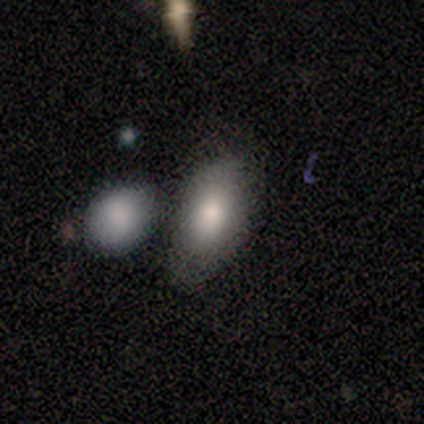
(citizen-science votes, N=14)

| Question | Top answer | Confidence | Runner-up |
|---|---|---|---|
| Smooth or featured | smooth | 86% | featured or disk (14%) |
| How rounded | in between | 92% | round (8%) |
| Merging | none | 57% | minor disturbance (14%) |